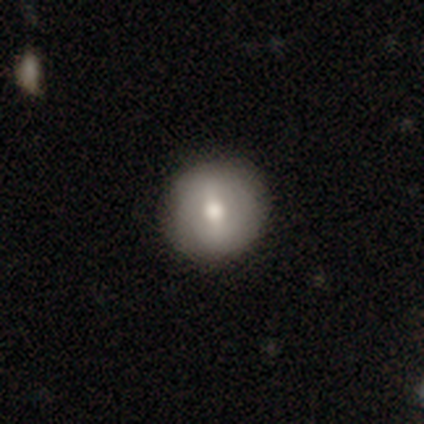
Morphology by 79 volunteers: smooth-or-featured: smooth: 54% | featured or disk: 42% | star or artifact: 4%
  how-rounded: round: 91% | in between: 9% | cigar-shaped: 0%
  merging: none: 47% | minor disturbance: 3% | major disturbance: 1% | merger: 1%